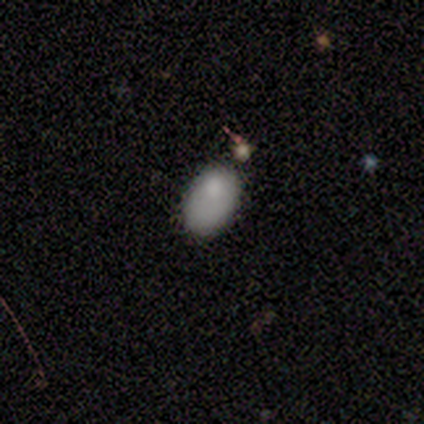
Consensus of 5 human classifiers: Smooth or featured? smooth (80%)
How rounded? in between (100%)
Merging? none (100%)